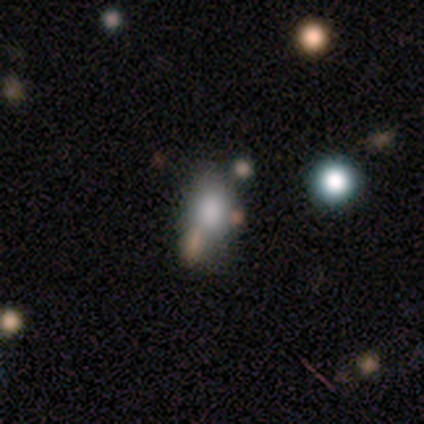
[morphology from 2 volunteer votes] Overall: featured or disk (50%, tied with star or artifact). Edge-on disk: no (100%). Bar: no (100%). Spiral arms: no (100%). Bulge size: small (100%). Merging: major disturbance (100%).